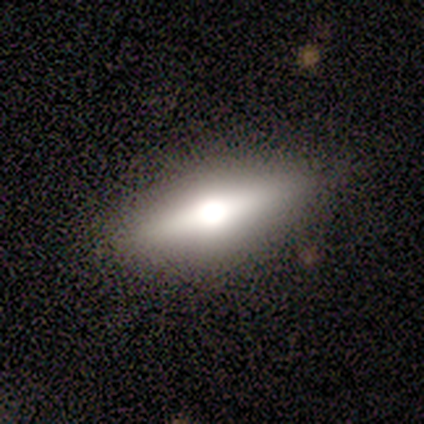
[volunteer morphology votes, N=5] smooth_or_featured: featured or disk (p=0.60) [alt: smooth p=0.20]
disk_edge_on: yes (p=1.00)
edge_on_bulge: rounded (p=0.67) [alt: boxy p=0.33]
merging: none (p=1.00)